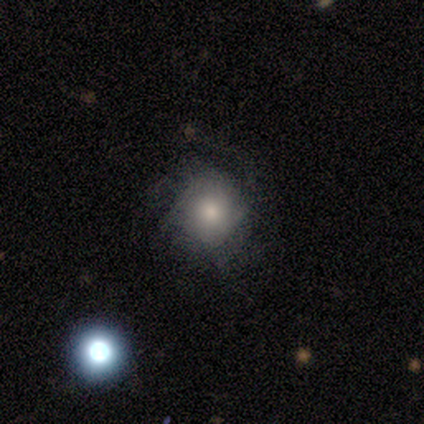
Smooth or featured: smooth — 43% (tied with featured or disk — 43%)
How rounded: round — 67% (in between — 33%)
Merging: minor disturbance — 50% (none — 33%)